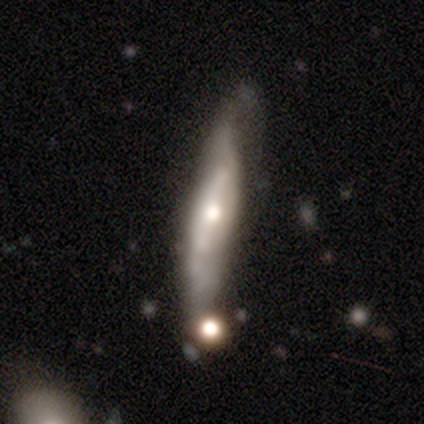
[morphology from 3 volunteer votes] This is marginally a smooth galaxy (33%, tied with featured or disk and star or artifact). How rounded: clearly cigar-shaped (100%). Merging: possibly none (50%, tied with major disturbance).